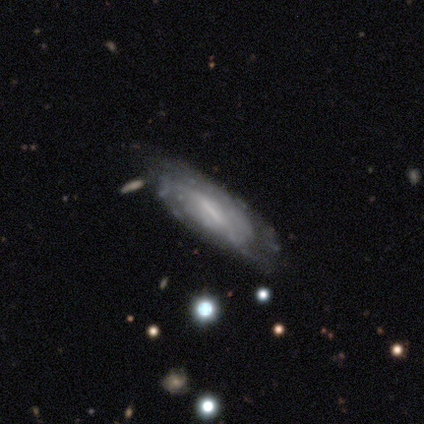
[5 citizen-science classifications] featured or disk 100%, smooth 0%, star or artifact 0%. Down the decision tree: edge-on disk — no (100%); bar — weak (80%); spiral arms — yes (60%); spiral arm count — can't tell (67%); spiral winding — tight (100%); bulge size — moderate (60%); merging — none (40%, tied with minor disturbance).